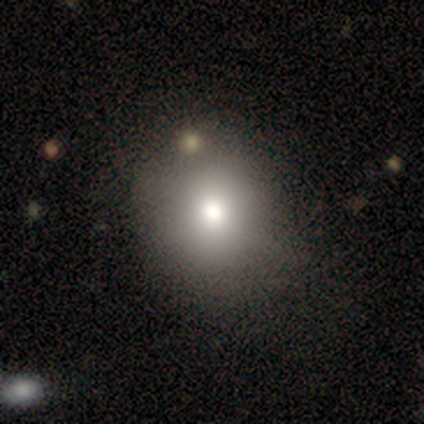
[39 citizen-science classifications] smooth-or-featured: smooth: 59% | featured or disk: 21% | star or artifact: 21%
  how-rounded: round: 78% | in between: 22% | cigar-shaped: 0%
  merging: none: 48% | minor disturbance: 16% | major disturbance: 6% | merger: 6%